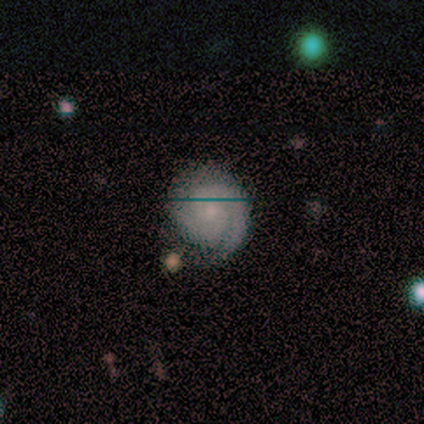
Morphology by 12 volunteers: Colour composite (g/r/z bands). It shows a featured or disk galaxy (75%) with no bar (56%), 2 (67%) tight (44%, tied with medium) spiral arms (100%) and a small central bulge (78%). Merging: none (92%).